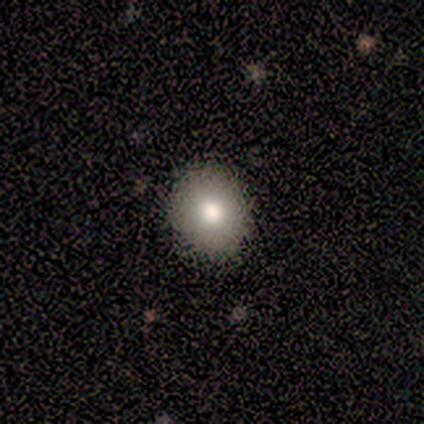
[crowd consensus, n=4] smooth_or_featured: smooth (p=0.75) [alt: featured or disk p=0.25]
how_rounded: round (p=0.67) [alt: in between p=0.33]
merging: none (p=0.50) [tied with: minor disturbance p=0.50]